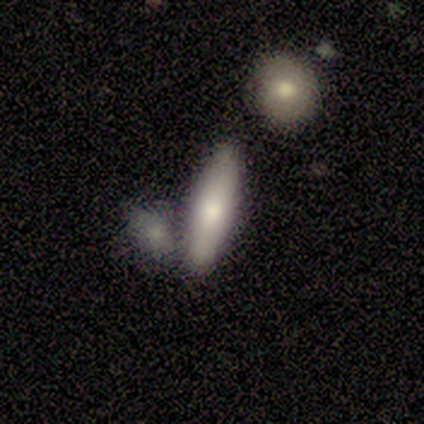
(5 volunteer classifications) Morphology: type=smooth (60%); roundness=in between (100%); merging=none (40%, tied with merger).